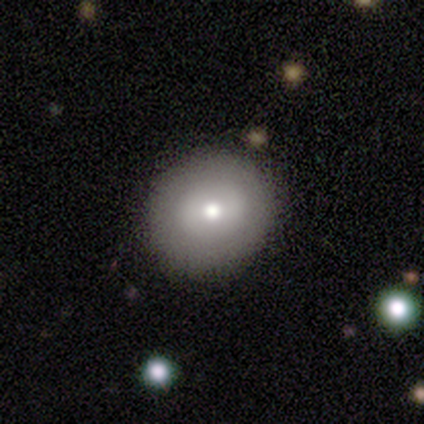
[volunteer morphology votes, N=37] Smooth or featured?
  - smooth: 62% *
  - featured or disk: 32%
  - star or artifact: 5%
How rounded?
  - round: 83% *
  - in between: 17%
  - cigar-shaped: 0%
Merging?
  - none: 83% *
  - minor disturbance: 14%
  - major disturbance: 3%
  - merger: 0%